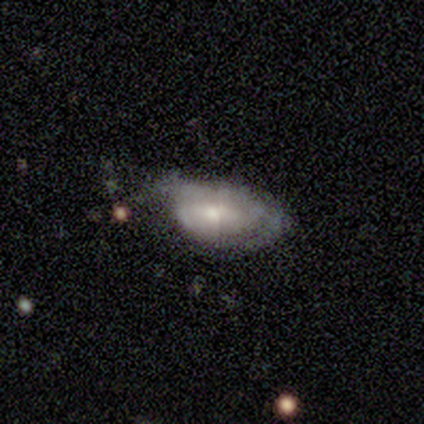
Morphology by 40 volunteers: smooth-or-featured: featured or disk: 60% | smooth: 35% | star or artifact: 5%
  disk-edge-on: no: 92% | yes: 8%
    bar: no: 64% | weak: 27% | strong: 9%
    has-spiral-arms: yes: 55% | no: 45%
      spiral-winding: tight: 58% | medium: 33% | loose: 8%
      spiral-arm-count: 2: 42% | can't tell: 33% | 1: 17% | 4: 8% | 3: 0% | more than 4: 0%
    bulge-size: small: 50% | moderate: 41% | none: 9% | dominant: 0% | large: 0%
  merging: none: 34% | minor disturbance: 29% | major disturbance: 29% | merger: 8%